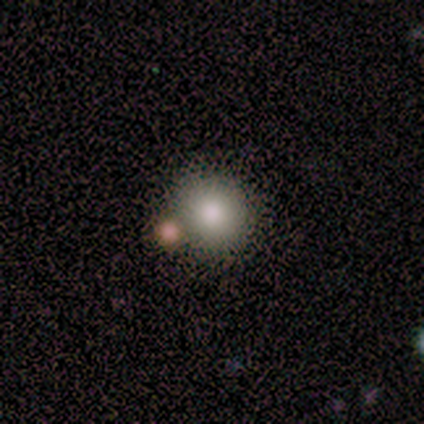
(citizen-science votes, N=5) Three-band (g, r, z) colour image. It shows a smooth galaxy with no disk features (60%) that is round (100%). Merging: none (100%).